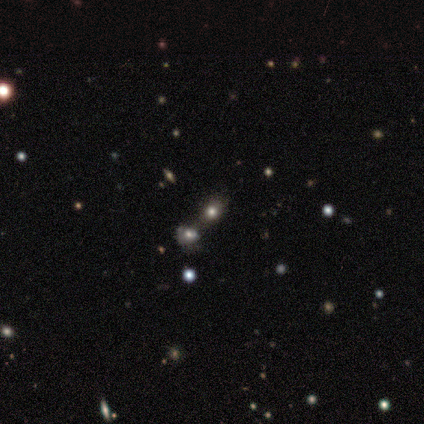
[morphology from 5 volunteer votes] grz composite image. It shows a smooth galaxy with no disk features (80%) that is round (75%). Merging: none (75%).